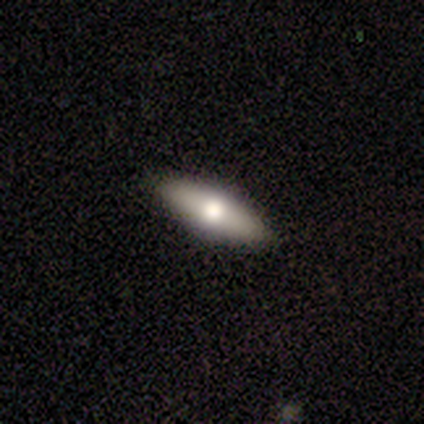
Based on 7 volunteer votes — smooth-or-featured: featured or disk: 71% | smooth: 29% | star or artifact: 0%
  disk-edge-on: yes: 60% | no: 40%
    edge-on-bulge: rounded: 100% | boxy: 0% | none: 0%
  merging: none: 100% | minor disturbance: 0% | major disturbance: 0% | merger: 0%